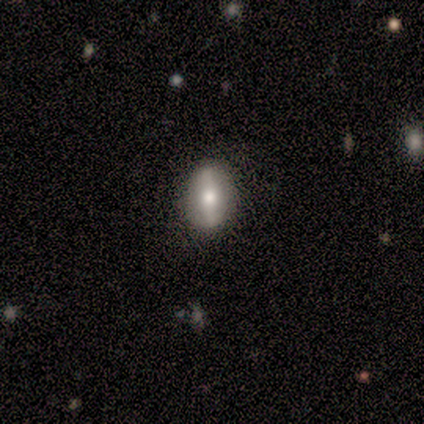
Smooth or featured? 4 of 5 (80%) said featured or disk. Edge-on disk? 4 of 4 (100%) said no. Bar? 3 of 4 (75%) said strong. Spiral arms? 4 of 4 (100%) said no. Bulge size? 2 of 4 (50%, tied with large) said dominant. Merging? 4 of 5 (80%) said none.